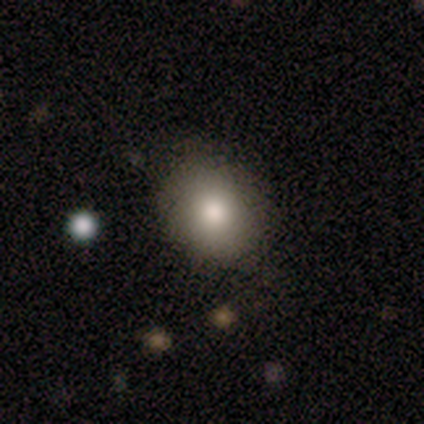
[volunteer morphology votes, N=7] A smooth galaxy with no disk features (71%) that is round (60%).

Vote fractions:
- Smooth or featured? smooth: 71% / featured or disk: 14% / star or artifact: 14%
- How rounded? round: 60% / in between: 40% / cigar-shaped: 0%
- Merging? none: 67% / minor disturbance: 33% / major disturbance: 0% / merger: 0%